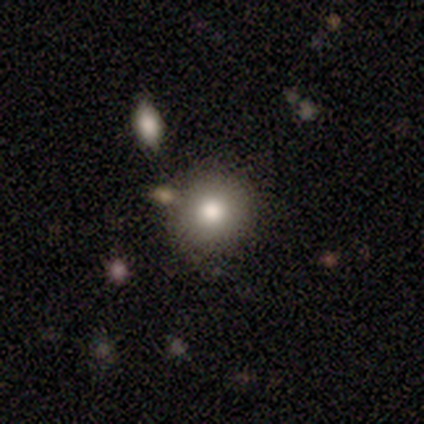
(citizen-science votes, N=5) This is clearly a smooth galaxy (100%). How rounded: clearly round (100%). Merging: likely none (60%).